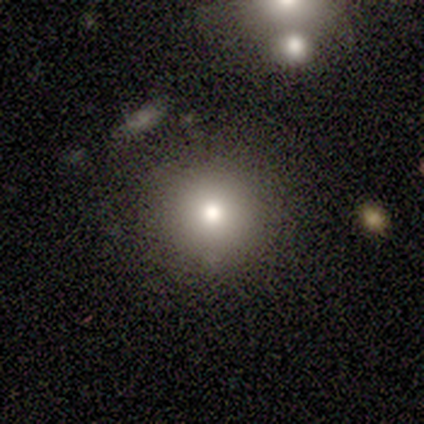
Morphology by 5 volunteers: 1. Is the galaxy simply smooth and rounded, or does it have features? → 60% smooth, 20% featured or disk, 20% star or artifact.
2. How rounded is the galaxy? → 67% in between, 33% round, 0% cigar-shaped.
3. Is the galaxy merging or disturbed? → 100% none, 0% minor disturbance, 0% major disturbance, 0% merger.